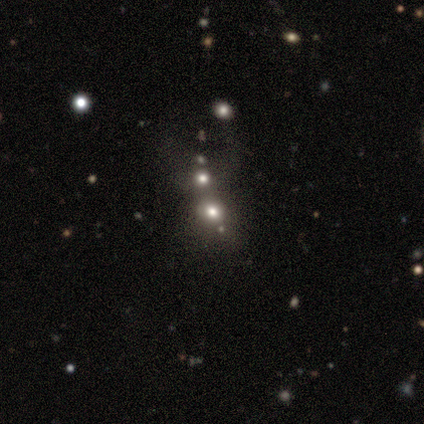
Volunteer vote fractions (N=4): Smooth or featured? 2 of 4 (50%, tied with star or artifact) said smooth. How rounded? 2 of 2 (100%) said round. Merging? 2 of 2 (100%) said none.